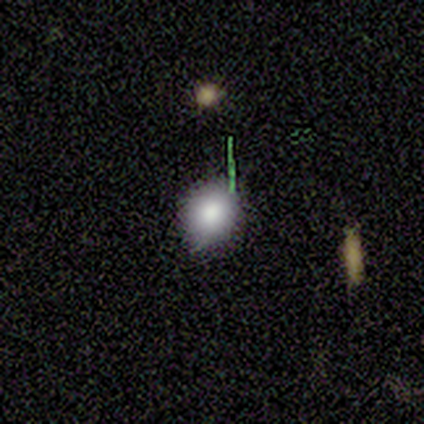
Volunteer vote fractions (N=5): A smooth galaxy with no disk features (80%) that is round (100%).

Vote fractions:
- Smooth or featured? smooth: 80% / star or artifact: 20% / featured or disk: 0%
- How rounded? round: 100% / in between: 0% / cigar-shaped: 0%
- Merging? none: 100% / minor disturbance: 0% / major disturbance: 0% / merger: 0%